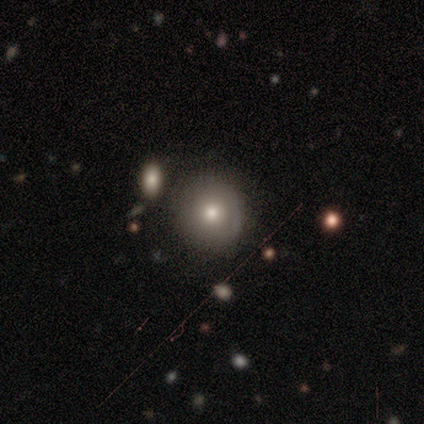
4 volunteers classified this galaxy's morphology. Q: Smooth or featured?
A: smooth (75%); runner-up: star or artifact (25%)
Q: How rounded?
A: round (100%)
Q: Merging?
A: none (100%)